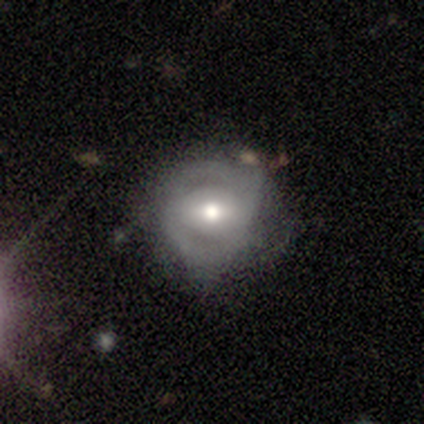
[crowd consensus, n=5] Smooth or featured?
  - featured or disk: 80% *
  - smooth: 20%
  - star or artifact: 0%
Edge-on disk?
  - no: 100% *
  - yes: 0%
Bar?
  - weak: 75% *
  - no: 25%
  - strong: 0%
Spiral arms?
  - yes: 50% * (tied)
  - no: 50% * (tied)
Spiral winding?
  - tight: 50% * (tied)
  - medium: 50% * (tied)
  - loose: 0%
Spiral arm count?
  - 2: 100% *
  - 1: 0%
  - 3: 0%
  - 4: 0%
  - more than 4: 0%
  - can't tell: 0%
Bulge size?
  - moderate: 50% *
  - dominant: 25%
  - large: 25%
  - small: 0%
  - none: 0%
Merging?
  - none: 40% *
  - minor disturbance: 20%
  - major disturbance: 20%
  - merger: 20%